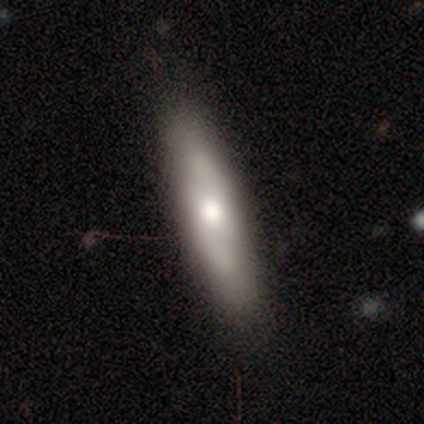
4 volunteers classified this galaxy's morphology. This is possibly a smooth galaxy (50%, tied with featured or disk). How rounded: possibly in between (50%, tied with cigar-shaped). Merging: possibly none (50%).